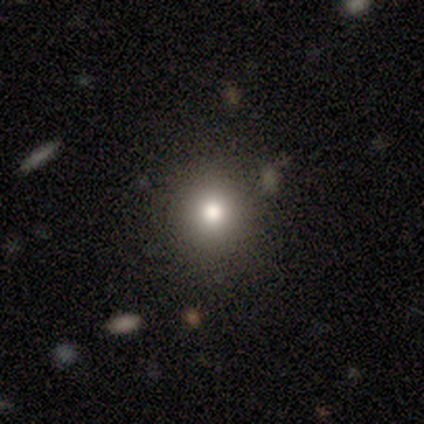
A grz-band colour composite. It shows a smooth galaxy with no disk features (100%) that is round (80%). Merging: none (100%).